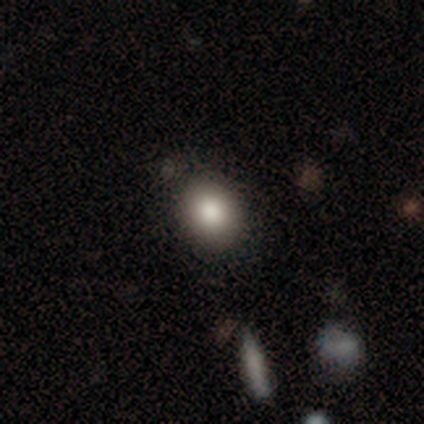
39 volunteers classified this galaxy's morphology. smooth_or_featured: smooth (p=0.77) [alt: featured or disk p=0.13]
how_rounded: round (p=0.57) [alt: in between p=0.43]
merging: none (p=0.83) [alt: minor disturbance p=0.14]